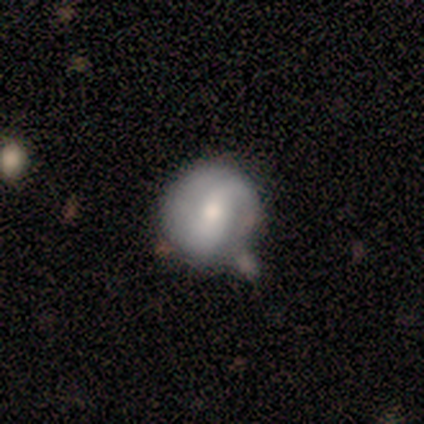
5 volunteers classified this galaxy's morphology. Smooth or featured: featured or disk — 60% (smooth — 40%)
Edge-on disk: no — 100%
Bar: weak — 67% (strong — 33%)
Spiral arms: yes — 67% (no — 33%)
Spiral winding: tight — 100%
Spiral arm count: 2 — 100%
Bulge size: moderate — 67% (small — 33%)
Merging: none — 60% (minor disturbance — 20%)